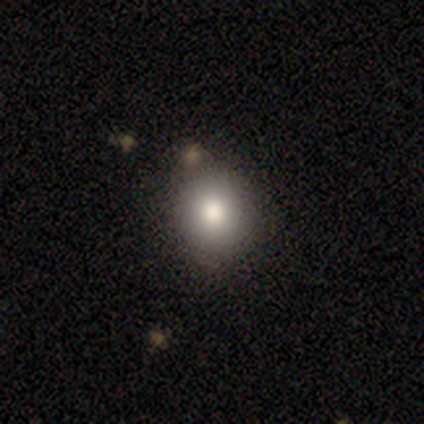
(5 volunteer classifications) A smooth galaxy with no disk features (100%) that is round (60%).

Vote fractions:
- Smooth or featured? smooth: 100% / featured or disk: 0% / star or artifact: 0%
- How rounded? round: 60% / in between: 40% / cigar-shaped: 0%
- Merging? none: 100% / minor disturbance: 0% / major disturbance: 0% / merger: 0%